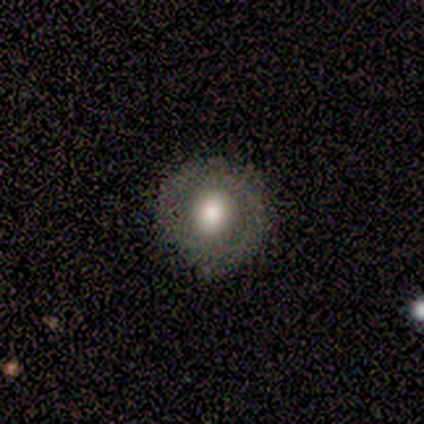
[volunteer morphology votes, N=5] Volunteers were most divided on "smooth or featured": featured or disk: 60%, smooth: 40%, star or artifact: 0%. More confident: edge-on disk — no (100%); bar — no (100%); spiral arms — no (100%); merging — none (100%); bulge size — large (67%).